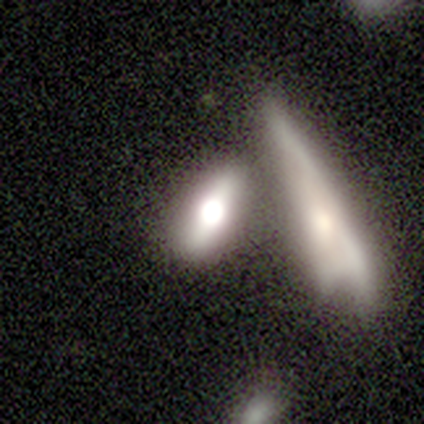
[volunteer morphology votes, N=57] Smooth or featured: smooth — 49% (featured or disk — 47%)
How rounded: in between — 61% (cigar-shaped — 39%)
Merging: merger — 47% (none — 35%)